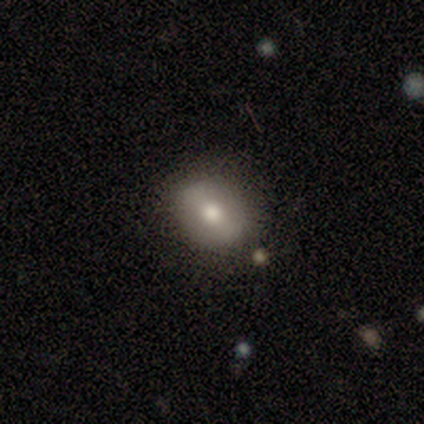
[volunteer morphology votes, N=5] smooth 60%, star or artifact 40%, featured or disk 0%. Down the decision tree: how rounded — round (67%); merging — none (100%).